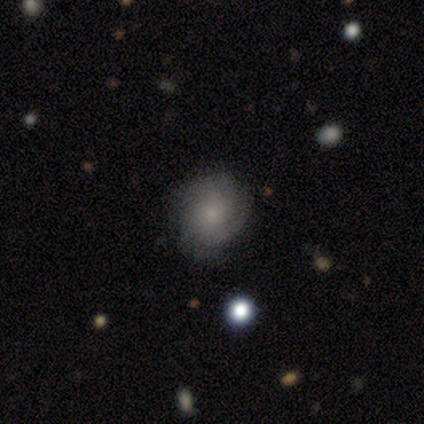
Overall: featured or disk (60%; smooth 40%). Edge-on disk: no (100%). Bar: no (100%). Spiral arms: yes (100%). Spiral arm count: can't tell (67%; 4 33%). Spiral winding: tight (100%). Bulge size: small (100%). Merging: none (100%).